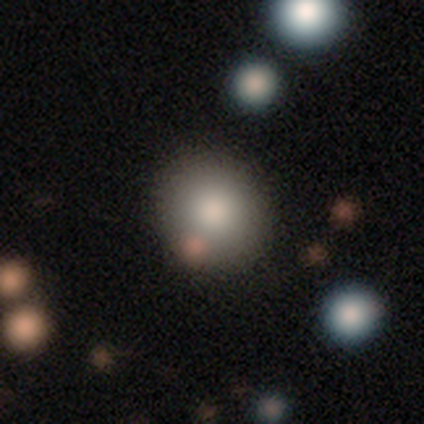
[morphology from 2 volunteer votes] smooth 50% (tied), featured or disk 50% (tied), star or artifact 0%. Down the decision tree: how rounded — round (100%); merging — none (50%, tied with minor disturbance).